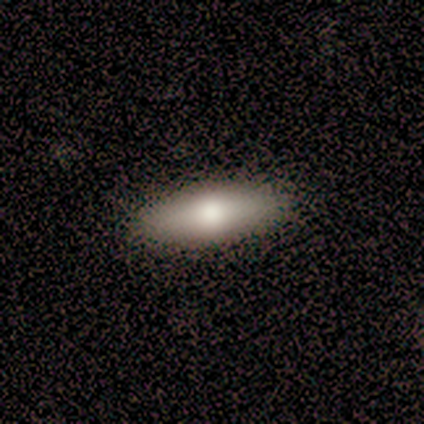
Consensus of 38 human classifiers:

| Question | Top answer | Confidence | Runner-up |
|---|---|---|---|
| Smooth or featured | smooth | 71% | featured or disk (26%) |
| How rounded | in between | 56% | cigar-shaped (44%) |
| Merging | none | 51% | merger (3%) |